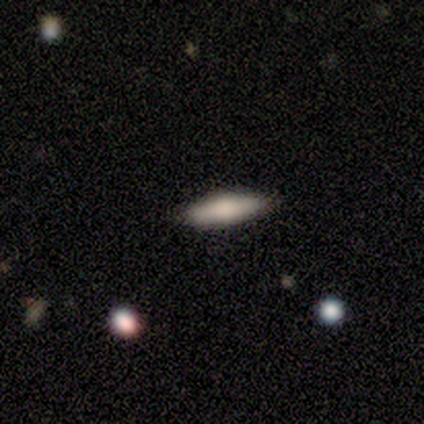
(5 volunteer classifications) Smooth or featured? 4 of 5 (80%) said smooth. How rounded? 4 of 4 (100%) said cigar-shaped. Merging? 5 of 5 (100%) said none.